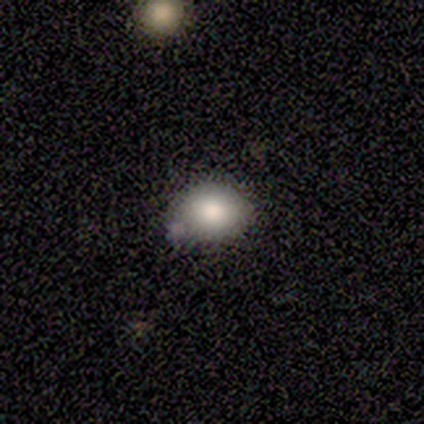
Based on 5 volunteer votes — smooth-or-featured: smooth: 100% | featured or disk: 0% | star or artifact: 0%
  how-rounded: round: 60% | in between: 40% | cigar-shaped: 0%
  merging: none: 80% | merger: 20% | minor disturbance: 0% | major disturbance: 0%